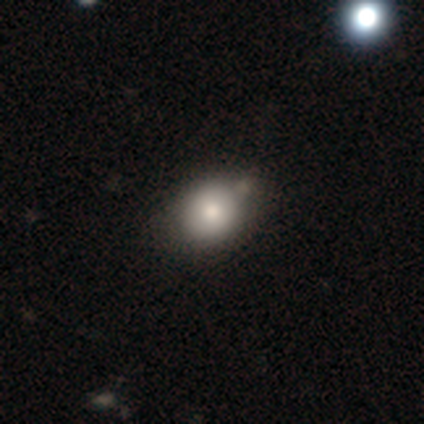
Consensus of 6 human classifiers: A smooth galaxy with no disk features (100%) that is round (100%).

Vote fractions:
- Smooth or featured? smooth: 100% / featured or disk: 0% / star or artifact: 0%
- How rounded? round: 100% / in between: 0% / cigar-shaped: 0%
- Merging? none: 83% / minor disturbance: 17% / major disturbance: 0% / merger: 0%